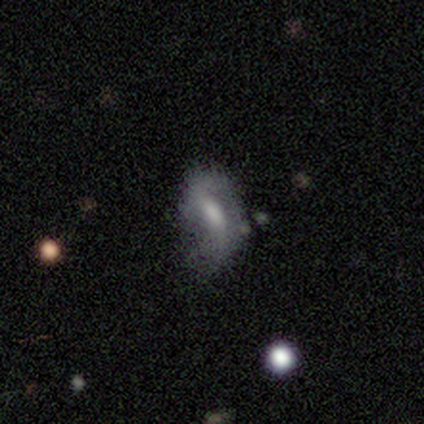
Overall: smooth (60%; featured or disk 20%). How rounded: in between (100%). Merging: none (50%, tied with minor disturbance).